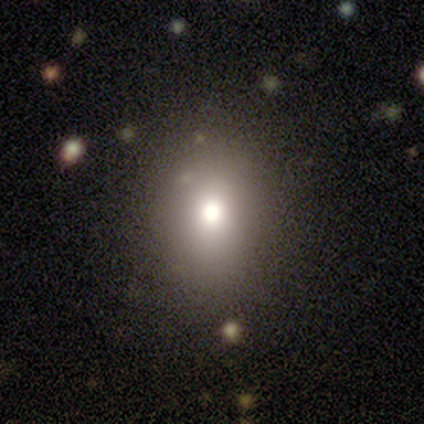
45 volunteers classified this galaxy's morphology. Volunteers were most divided on "how rounded": in between: 55%, round: 45%, cigar-shaped: 0%. More confident: smooth or featured — smooth (73%); merging — none (73%).